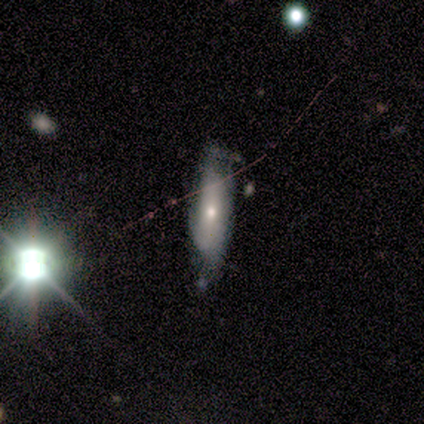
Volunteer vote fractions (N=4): This is likely a smooth galaxy (75%). How rounded: likely cigar-shaped (67%). Merging: possibly none (50%).